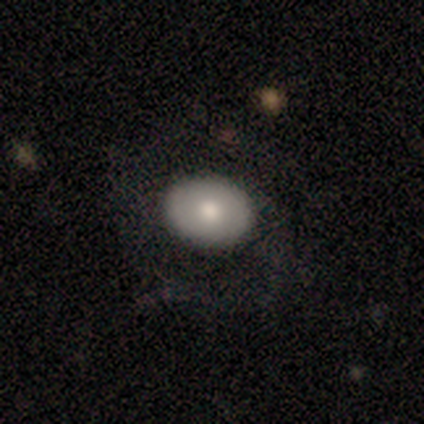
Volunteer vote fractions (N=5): smooth-or-featured: smooth: 100% | featured or disk: 0% | star or artifact: 0%
  how-rounded: in between: 80% | round: 20% | cigar-shaped: 0%
  merging: major disturbance: 60% | none: 20% | minor disturbance: 20% | merger: 0%